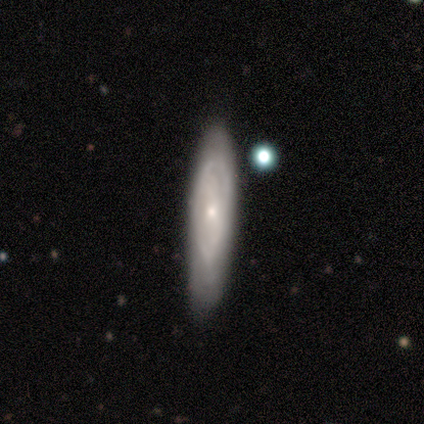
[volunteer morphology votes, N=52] Overall: featured or disk (71%). Edge-on disk: no (76%). Bar: no (68%). Spiral arms: yes (54%; no 46%). Spiral arm count: can't tell (53%; 2 33%). Spiral winding: tight (53%; medium 40%). Bulge size: small (64%; moderate 36%). Merging: none (73%).